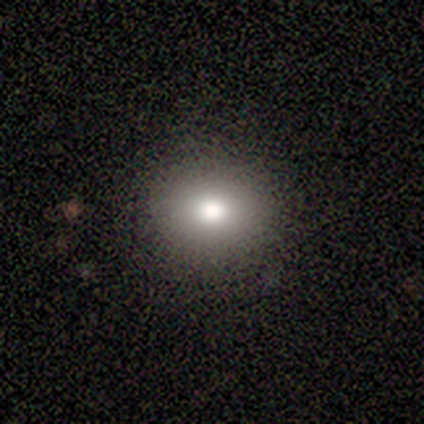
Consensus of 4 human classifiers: Q: Smooth or featured?
A: smooth (75%); runner-up: star or artifact (25%)
Q: How rounded?
A: round (100%)
Q: Merging?
A: none (100%)